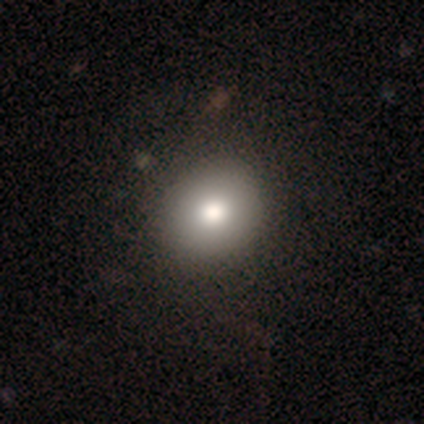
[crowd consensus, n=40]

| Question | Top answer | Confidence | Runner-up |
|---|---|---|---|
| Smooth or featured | smooth | 72% | featured or disk (20%) |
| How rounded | round | 90% | in between (10%) |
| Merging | none | 59% | minor disturbance (8%) |